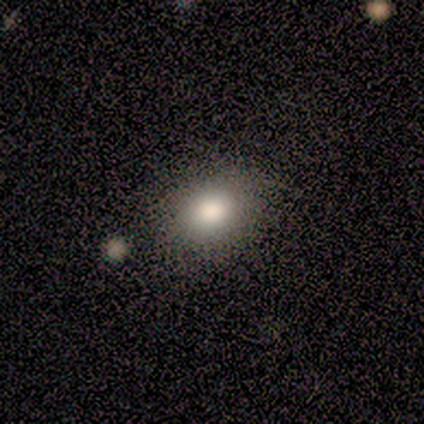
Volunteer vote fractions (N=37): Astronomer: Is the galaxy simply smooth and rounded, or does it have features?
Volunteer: smooth — 81%.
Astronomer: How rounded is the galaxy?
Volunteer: in between — 73%.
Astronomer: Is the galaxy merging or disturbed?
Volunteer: none — 69%.